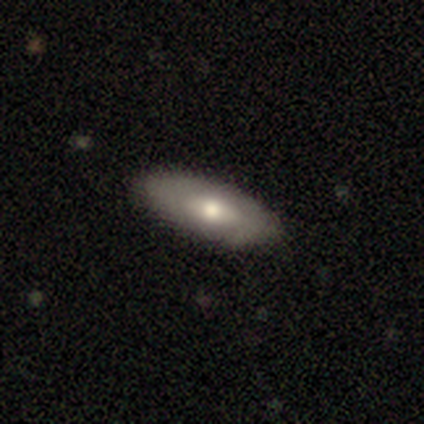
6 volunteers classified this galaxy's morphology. smooth-or-featured: smooth: 83% | featured or disk: 17% | star or artifact: 0%
  how-rounded: in between: 60% | cigar-shaped: 40% | round: 0%
  merging: none: 100% | minor disturbance: 0% | major disturbance: 0% | merger: 0%